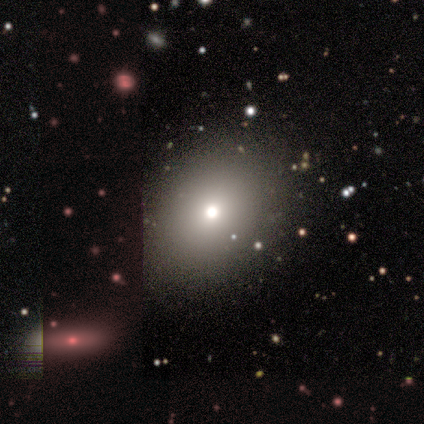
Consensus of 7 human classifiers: Smooth or featured? smooth (86%)
How rounded? round (50%, tied with in between)
Merging? none (83%)